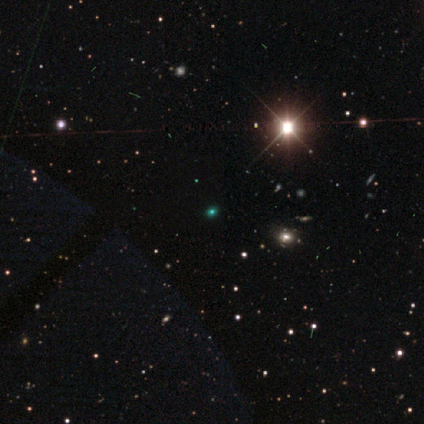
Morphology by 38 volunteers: This is likely a star or artifact rather than a galaxy (76%).